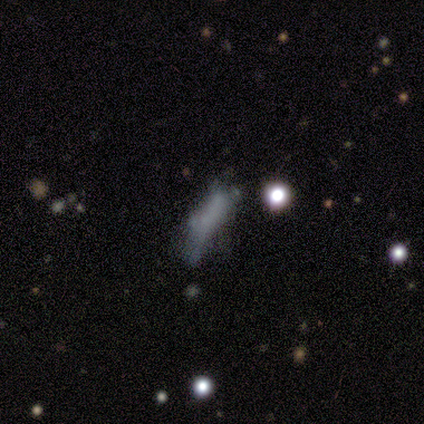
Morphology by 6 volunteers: Q: Smooth or featured?
A: smooth (50%); runner-up: featured or disk (33%)
Q: How rounded?
A: cigar-shaped (67%); runner-up: in between (33%)
Q: Merging?
A: none (40%); tied with: major disturbance (40%)